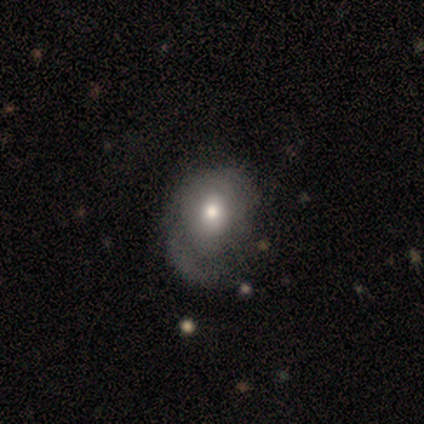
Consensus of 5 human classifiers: smooth_or_featured: smooth (p=0.60) [alt: featured or disk p=0.20]
how_rounded: round (p=0.67) [alt: in between p=0.33]
merging: none (p=0.50) [tied with: major disturbance p=0.50]